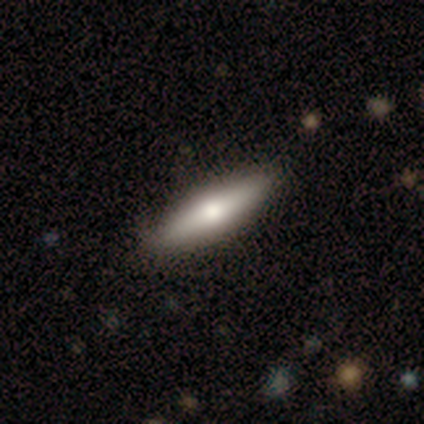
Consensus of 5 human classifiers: Volunteers were most divided on "merging": none: 60%, minor disturbance: 20%, major disturbance: 20%, merger: 0%. More confident: smooth or featured — smooth (100%); how rounded — cigar-shaped (80%).